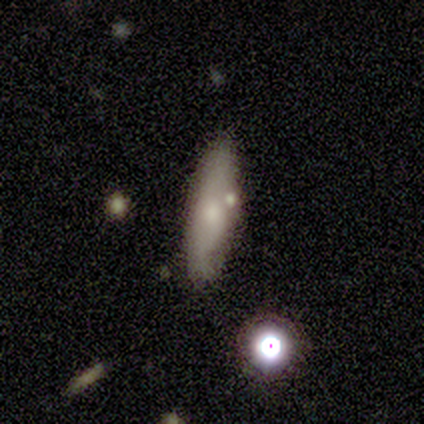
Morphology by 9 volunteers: Overall: smooth (89%). How rounded: cigar-shaped (75%). Merging: none (100%).